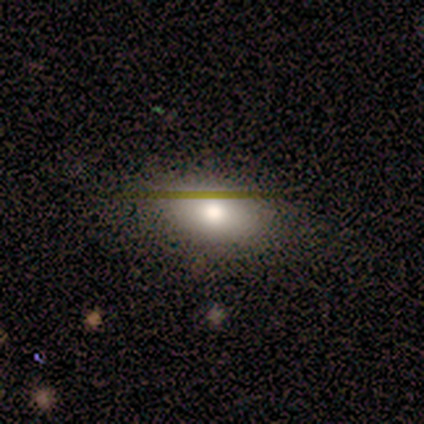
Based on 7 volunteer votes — Overall: smooth (43%, tied with featured or disk). How rounded: in between (100%). Merging: none (100%).